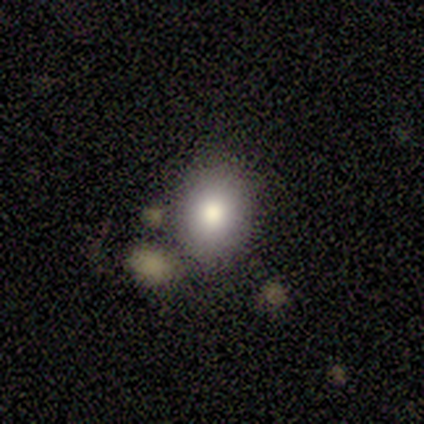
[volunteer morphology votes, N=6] A smooth galaxy with no disk features (100%) that is round (50%, tied with in between).

Vote fractions:
- Smooth or featured? smooth: 100% / featured or disk: 0% / star or artifact: 0%
- How rounded? round: 50% (tied) / in between: 50% (tied) / cigar-shaped: 0%
- Merging? none: 100% / minor disturbance: 0% / major disturbance: 0% / merger: 0%